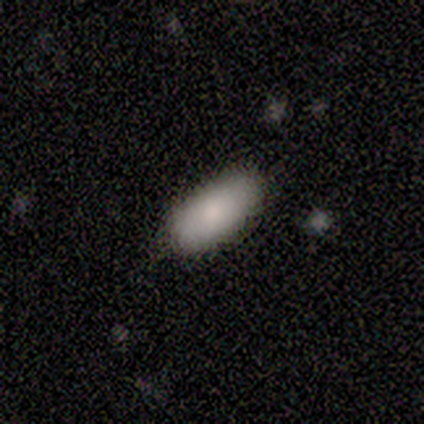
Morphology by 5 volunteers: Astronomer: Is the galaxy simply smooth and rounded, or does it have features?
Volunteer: smooth — 100%.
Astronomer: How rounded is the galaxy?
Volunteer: in between — 100%.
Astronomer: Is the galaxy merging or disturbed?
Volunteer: none — 100%.